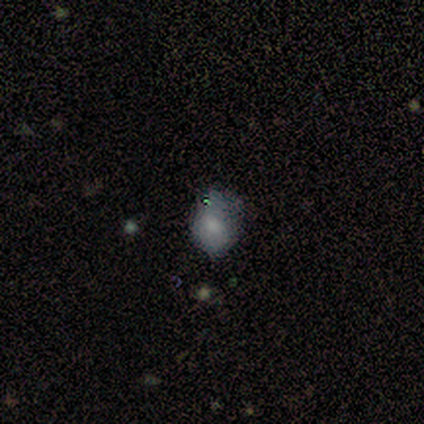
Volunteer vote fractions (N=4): This is likely a smooth galaxy (75%). How rounded: likely in between (67%). Merging: likely none (75%).